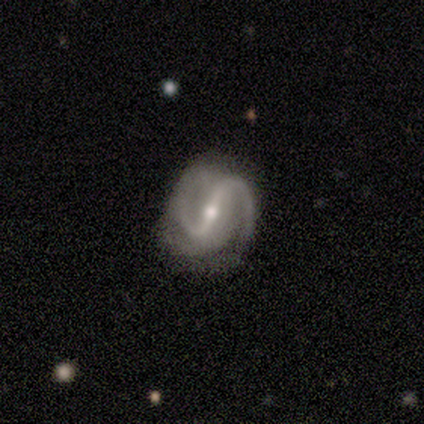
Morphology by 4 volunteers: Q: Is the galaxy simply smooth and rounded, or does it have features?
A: featured or disk — 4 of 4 (100%).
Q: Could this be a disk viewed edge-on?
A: no — 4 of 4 (100%).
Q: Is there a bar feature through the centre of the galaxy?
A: strong — 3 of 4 (75%).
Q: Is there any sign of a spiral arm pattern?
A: yes — 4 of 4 (100%).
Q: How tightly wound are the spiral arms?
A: medium — 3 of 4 (75%).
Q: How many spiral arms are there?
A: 2 — 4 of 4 (100%).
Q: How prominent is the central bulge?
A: moderate — 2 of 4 (50%).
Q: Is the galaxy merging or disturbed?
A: none — 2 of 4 (50%, tied with minor disturbance).